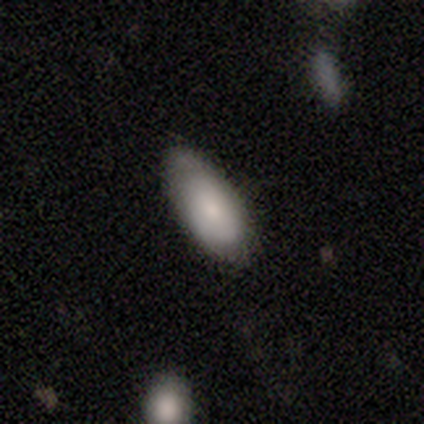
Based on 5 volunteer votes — Q: Smooth or featured?
A: smooth (100%)
Q: How rounded?
A: in between (80%); runner-up: cigar-shaped (20%)
Q: Merging?
A: none (60%); runner-up: minor disturbance (20%)